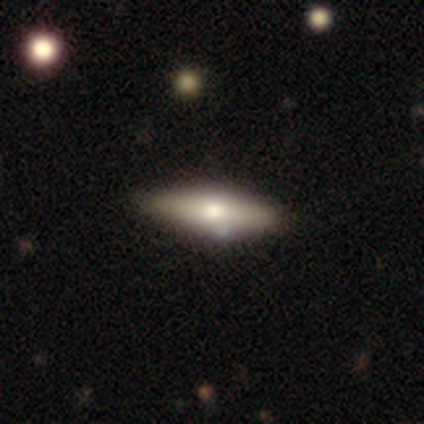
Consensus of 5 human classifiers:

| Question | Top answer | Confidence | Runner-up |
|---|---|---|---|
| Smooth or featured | smooth | 100% | — |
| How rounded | cigar-shaped | 60% | in between (40%) |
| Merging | none | 80% | minor disturbance (20%) |